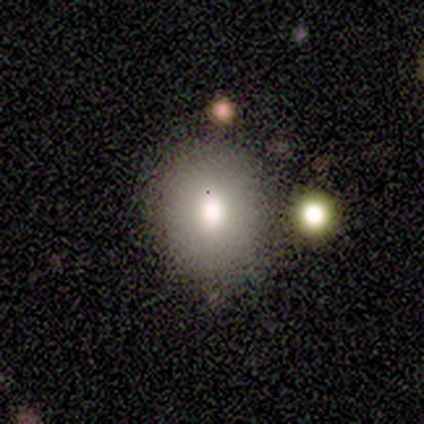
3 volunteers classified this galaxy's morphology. smooth_or_featured: smooth (p=0.67) [alt: star or artifact p=0.33]
how_rounded: round (p=0.50) [tied with: in between p=0.50]
merging: none (p=1.00)